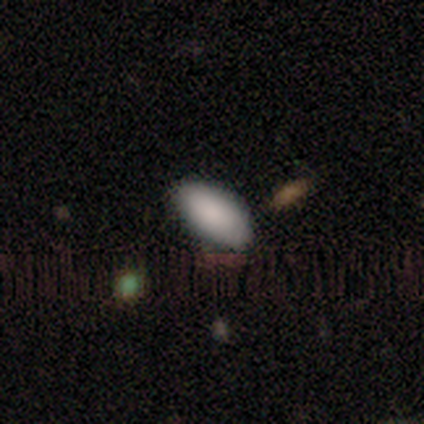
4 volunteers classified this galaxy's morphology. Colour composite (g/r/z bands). It shows a smooth galaxy with no disk features (100%) that is in between round and cigar-shaped (100%). Merging: none (100%).